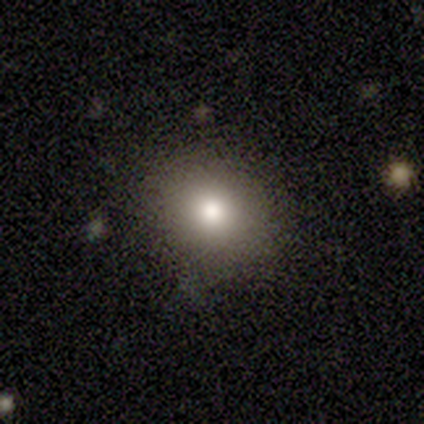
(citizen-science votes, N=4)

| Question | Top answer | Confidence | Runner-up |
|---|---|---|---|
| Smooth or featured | smooth | 75% | star or artifact (25%) |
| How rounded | round | 100% | — |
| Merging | none | 67% | minor disturbance (33%) |